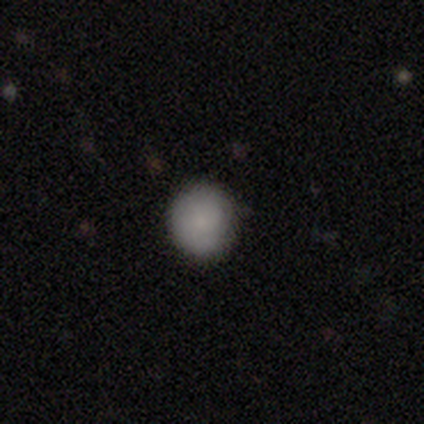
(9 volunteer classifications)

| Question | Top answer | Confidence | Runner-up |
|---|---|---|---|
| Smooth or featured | smooth | 67% | star or artifact (22%) |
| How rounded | round | 100% | — |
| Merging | none | 57% | minor disturbance (43%) |